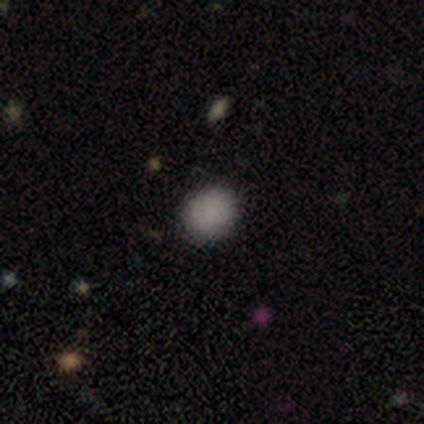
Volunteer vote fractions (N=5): smooth_or_featured: smooth (p=0.40) [tied with: featured or disk p=0.40]
how_rounded: round (p=0.50) [tied with: in between p=0.50]
merging: none (p=0.75) [alt: major disturbance p=0.25]